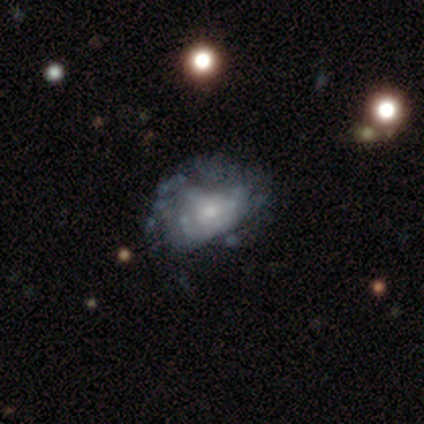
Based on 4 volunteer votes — Morphology: type=featured or disk (100%); edge-on=no (100%); bar=no (75%); spiral arms=no (75%); bulge=small (100%); merging=none (50%).